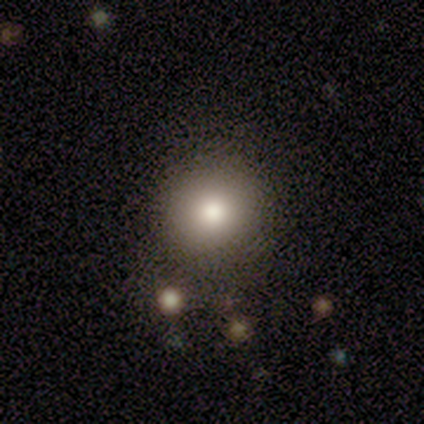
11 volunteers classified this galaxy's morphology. Smooth or featured? 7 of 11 (64%) said smooth. How rounded? 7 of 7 (100%) said round. Merging? 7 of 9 (78%) said none.